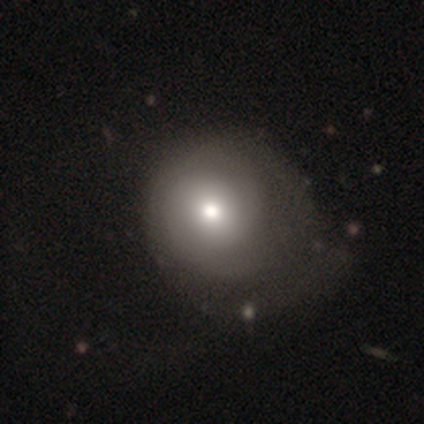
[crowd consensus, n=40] This appears to be a smooth galaxy with no disk features (55%) that is round (82%). Merging: minor disturbance (35%).